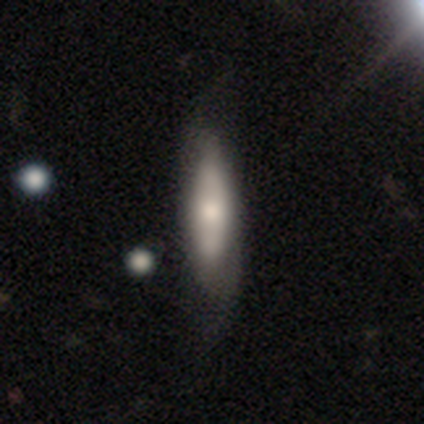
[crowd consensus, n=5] Smooth or featured?
  - featured or disk: 60% *
  - smooth: 40%
  - star or artifact: 0%
Edge-on disk?
  - no: 67% *
  - yes: 33%
Bar?
  - strong: 50% * (tied)
  - no: 50% * (tied)
  - weak: 0%
Spiral arms?
  - yes: 50% * (tied)
  - no: 50% * (tied)
Spiral winding?
  - loose: 100% *
  - tight: 0%
  - medium: 0%
Spiral arm count?
  - 2: 100% *
  - 1: 0%
  - 3: 0%
  - 4: 0%
  - more than 4: 0%
  - can't tell: 0%
Bulge size?
  - moderate: 50% * (tied)
  - small: 50% * (tied)
  - dominant: 0%
  - large: 0%
  - none: 0%
Merging?
  - none: 40% *
  - minor disturbance: 20%
  - major disturbance: 20%
  - merger: 20%